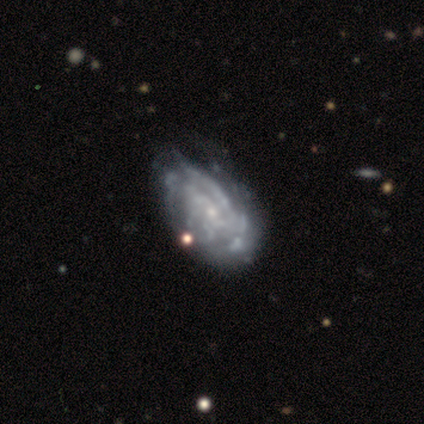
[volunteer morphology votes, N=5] Overall: featured or disk (100%). Edge-on disk: no (100%). Bar: no (60%; weak 40%). Spiral arms: yes (80%). Spiral arm count: can't tell (75%). Spiral winding: tight (50%, tied with loose). Bulge size: small (60%; moderate 20%). Merging: none (40%; minor disturbance 20%).